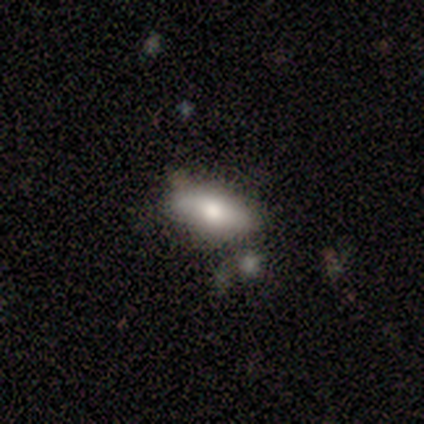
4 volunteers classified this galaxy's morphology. smooth 75%, featured or disk 25%, star or artifact 0%. Down the decision tree: how rounded — in between (100%); merging — none (75%).